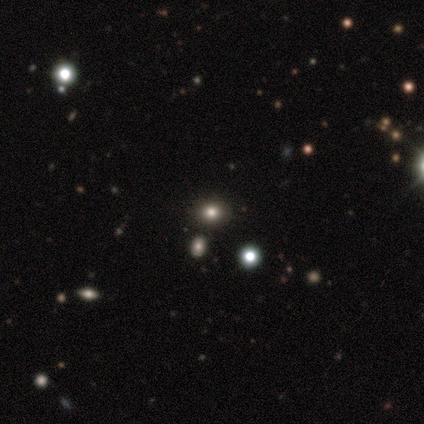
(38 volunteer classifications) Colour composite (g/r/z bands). It shows a smooth galaxy with no disk features (50%) that is round (68%). Merging: none (79%).